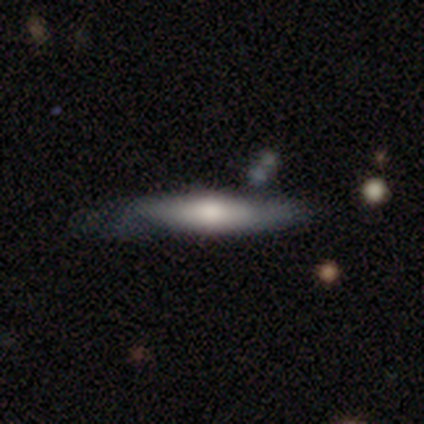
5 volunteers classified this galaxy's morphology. Smooth or featured? featured or disk (80%)
Edge-on disk? yes (100%)
Edge-on bulge? rounded (100%)
Merging? none (40%, tied with major disturbance)